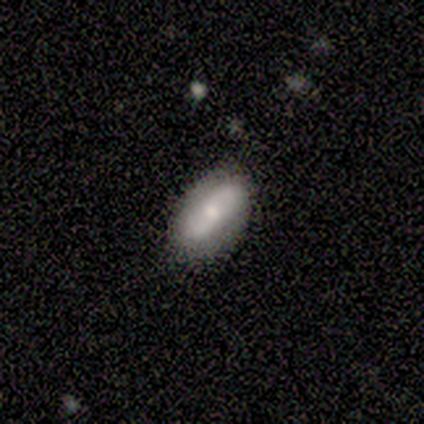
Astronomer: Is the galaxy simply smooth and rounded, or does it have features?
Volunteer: smooth — 60% (runner-up: featured or disk, 40%).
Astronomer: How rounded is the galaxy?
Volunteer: in between — 100%.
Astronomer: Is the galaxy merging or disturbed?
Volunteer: none — 80%.